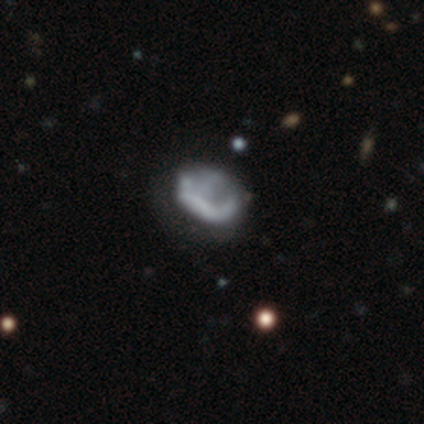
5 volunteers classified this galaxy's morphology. A smooth galaxy with no disk features (40%, tied with star or artifact) that is in between round and cigar-shaped (100%). Merging: minor disturbance (67%).